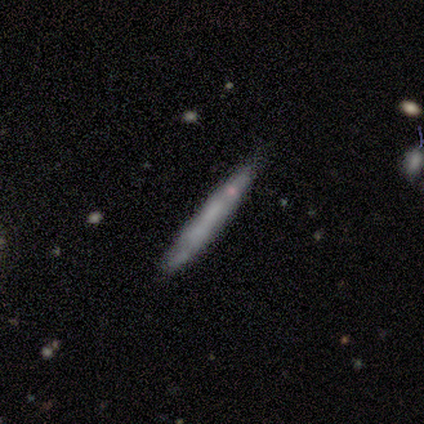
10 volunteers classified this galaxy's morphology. A smooth galaxy with no disk features (60%) that is cigar-shaped (100%).

Vote fractions:
- Smooth or featured? smooth: 60% / featured or disk: 40% / star or artifact: 0%
- How rounded? cigar-shaped: 100% / round: 0% / in between: 0%
- Merging? none: 80% / minor disturbance: 20% / major disturbance: 0% / merger: 0%